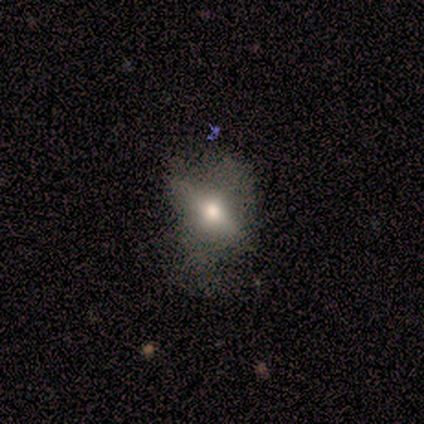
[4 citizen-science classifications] Morphology: type=featured or disk (75%); edge-on=yes (67%); edge-on bulge=rounded (100%); merging=none (50%).